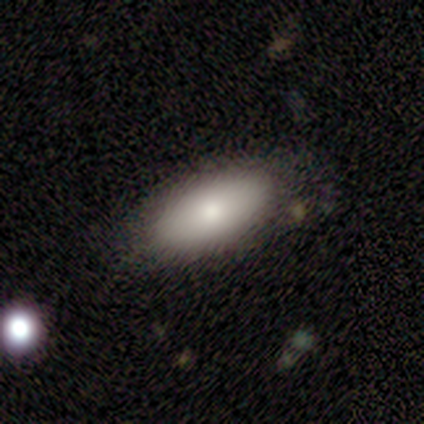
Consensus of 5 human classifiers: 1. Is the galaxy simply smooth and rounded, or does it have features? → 80% smooth, 20% featured or disk, 0% star or artifact.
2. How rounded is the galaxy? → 100% in between, 0% round, 0% cigar-shaped.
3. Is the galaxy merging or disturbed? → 60% none, 40% minor disturbance, 0% major disturbance, 0% merger.